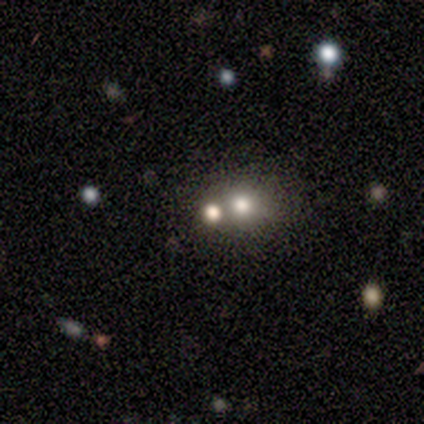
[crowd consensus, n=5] Smooth or featured?
  - smooth: 80% *
  - star or artifact: 20%
  - featured or disk: 0%
How rounded?
  - round: 100% *
  - in between: 0%
  - cigar-shaped: 0%
Merging?
  - none: 75% *
  - major disturbance: 25%
  - minor disturbance: 0%
  - merger: 0%